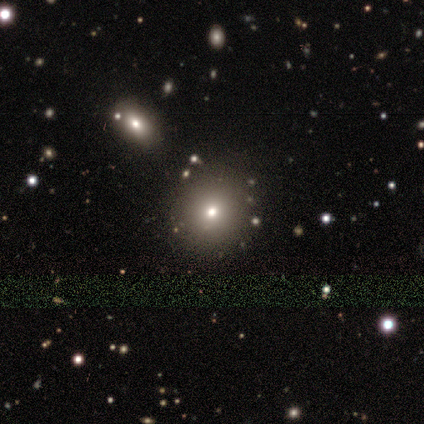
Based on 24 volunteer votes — smooth-or-featured: smooth: 71% | star or artifact: 25% | featured or disk: 4%
  how-rounded: round: 88% | in between: 12% | cigar-shaped: 0%
  merging: none: 22% | merger: 17% | minor disturbance: 11% | major disturbance: 0%